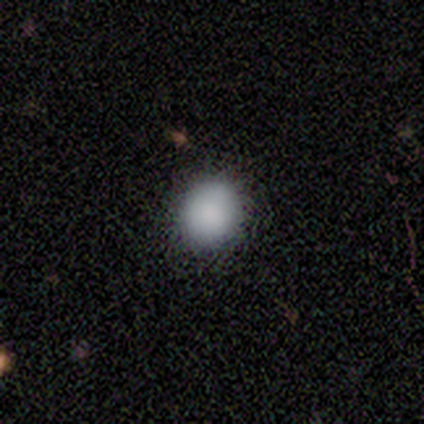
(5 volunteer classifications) Morphology: type=smooth (100%); roundness=round (80%); merging=none (100%).